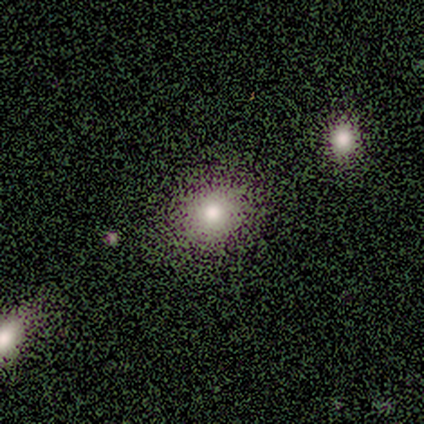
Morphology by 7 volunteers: type=smooth (57%); roundness=round (50%, tied with in between); merging=none (100%).